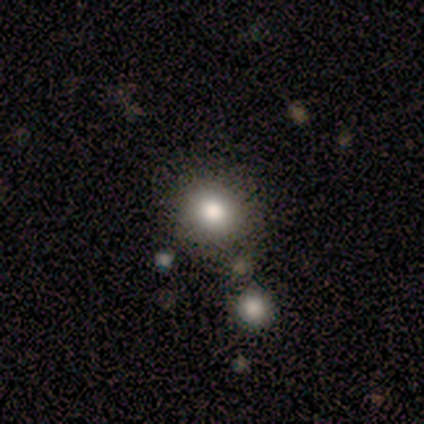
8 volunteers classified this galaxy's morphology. Smooth or featured? 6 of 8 (75%) said smooth. How rounded? 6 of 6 (100%) said round. Merging? 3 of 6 (50%) said none.